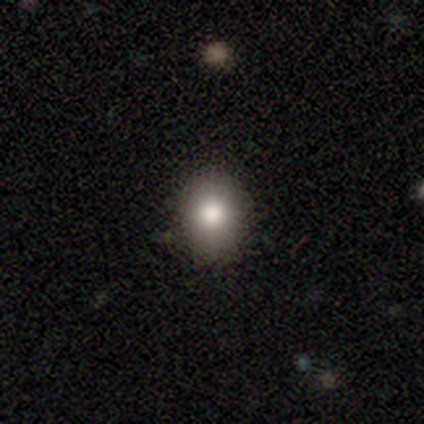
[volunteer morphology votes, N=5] A smooth galaxy with no disk features (60%) that is round (67%).

Vote fractions:
- Smooth or featured? smooth: 60% / featured or disk: 20% / star or artifact: 20%
- How rounded? round: 67% / in between: 33% / cigar-shaped: 0%
- Merging? none: 100% / minor disturbance: 0% / major disturbance: 0% / merger: 0%